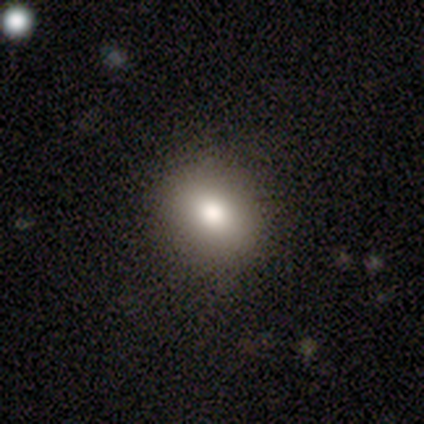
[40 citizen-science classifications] A smooth galaxy with no disk features (78%) that is round (52%).

Vote fractions:
- Smooth or featured? smooth: 78% / featured or disk: 12% / star or artifact: 10%
- How rounded? round: 52% / in between: 48% / cigar-shaped: 0%
- Merging? none: 89% / minor disturbance: 8% / major disturbance: 3% / merger: 0%